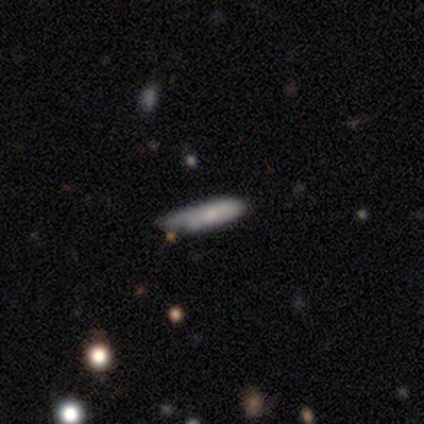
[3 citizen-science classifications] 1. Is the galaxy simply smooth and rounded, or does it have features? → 67% smooth, 33% featured or disk, 0% star or artifact.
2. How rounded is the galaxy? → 100% cigar-shaped, 0% round, 0% in between.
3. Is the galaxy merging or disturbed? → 33% none (tied), 33% minor disturbance (tied), 33% major disturbance (tied), 0% merger.